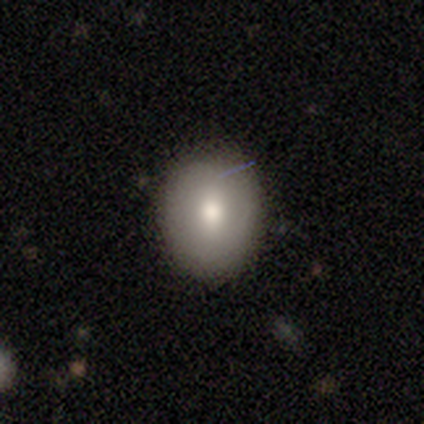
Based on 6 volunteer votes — smooth 67%, featured or disk 17%, star or artifact 17%. Down the decision tree: how rounded — round (50%, tied with in between); merging — none (100%).